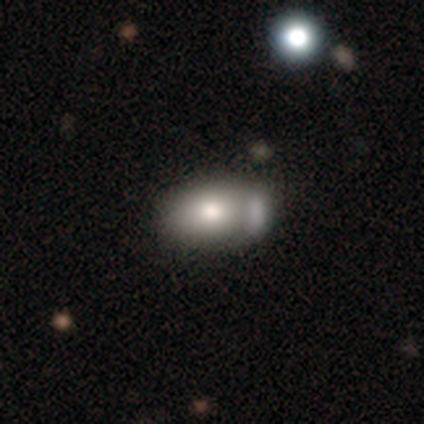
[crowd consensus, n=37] Volunteers were most divided on "merging": none: 34%, merger: 29%, minor disturbance: 23%, major disturbance: 14%. More confident: how rounded — in between (65%); smooth or featured — smooth (62%).